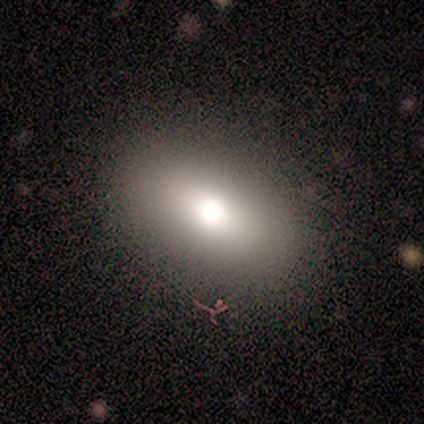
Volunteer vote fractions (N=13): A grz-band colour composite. It shows a smooth galaxy with no disk features (54%) that is in between round and cigar-shaped (86%). Merging: none (91%).